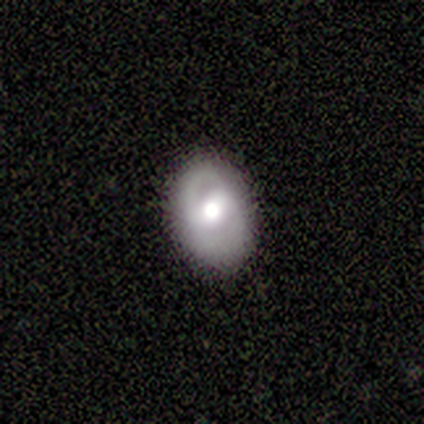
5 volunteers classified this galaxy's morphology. featured or disk 80%, smooth 20%, star or artifact 0%. Down the decision tree: edge-on disk — no (100%); bar — weak (50%); spiral arms — yes (50%, tied with no); spiral arm count — 2 (100%); spiral winding — tight (100%); bulge size — moderate (75%); merging — none (100%).